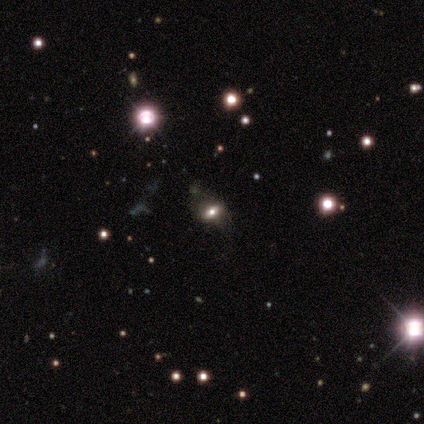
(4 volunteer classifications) Smooth or featured?
  - smooth: 50% * (tied)
  - featured or disk: 50% * (tied)
  - star or artifact: 0%
How rounded?
  - in between: 100% *
  - round: 0%
  - cigar-shaped: 0%
Merging?
  - none: 100% *
  - minor disturbance: 0%
  - major disturbance: 0%
  - merger: 0%